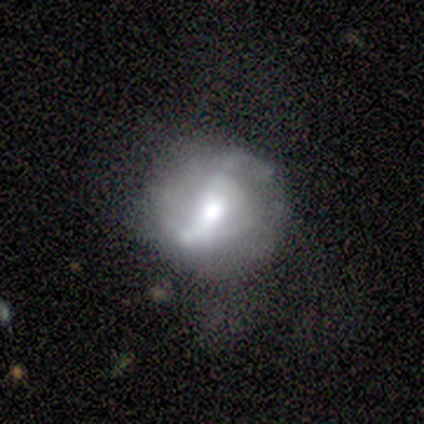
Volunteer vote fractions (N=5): Smooth or featured? featured or disk (100%)
Edge-on disk? no (100%)
Bar? weak (60%)
Spiral arms? yes (100%)
Spiral winding? loose (80%)
Spiral arm count? 2 (100%)
Bulge size? moderate (60%)
Merging? none (80%)